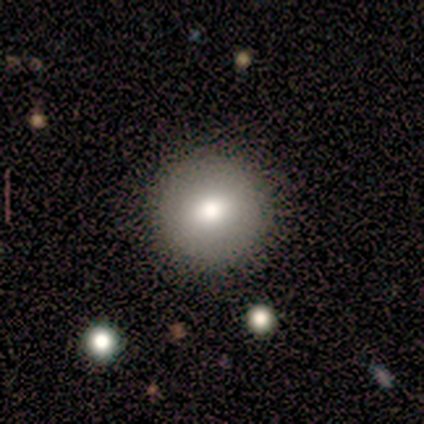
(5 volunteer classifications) This is clearly a smooth galaxy (100%). How rounded: clearly round (100%). Merging: clearly none (100%).